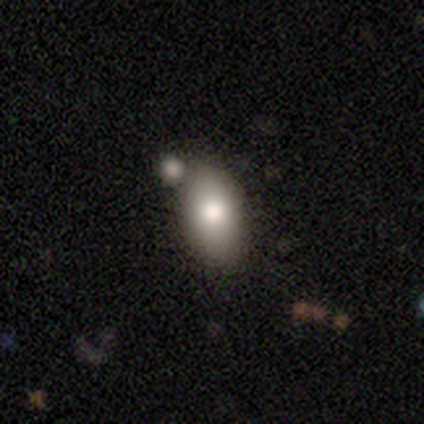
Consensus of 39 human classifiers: Overall: smooth (69%). How rounded: in between (100%). Merging: none (65%).